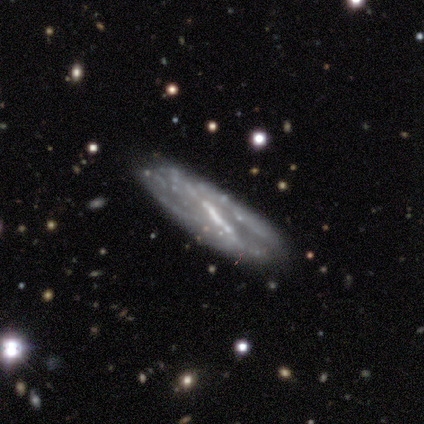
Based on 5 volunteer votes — Q: Smooth or featured?
A: featured or disk (100%)
Q: Edge-on disk?
A: no (100%)
Q: Bar?
A: strong (80%); runner-up: weak (20%)
Q: Spiral arms?
A: yes (60%); runner-up: no (40%)
Q: Spiral winding?
A: tight (67%); runner-up: loose (33%)
Q: Spiral arm count?
A: 2 (67%); runner-up: can't tell (33%)
Q: Bulge size?
A: none (60%); runner-up: large (20%)
Q: Merging?
A: none (100%)